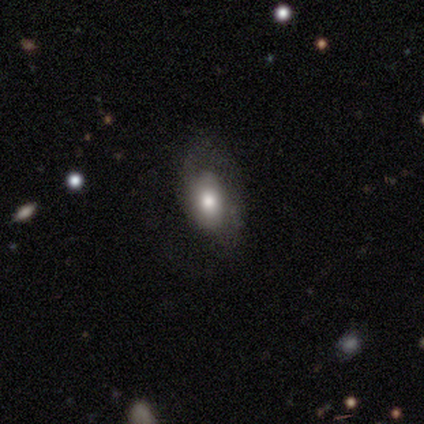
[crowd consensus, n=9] Smooth or featured? featured or disk (44%)
Edge-on disk? no (100%)
Bar? no (100%)
Spiral arms? yes (75%)
Spiral winding? medium (100%)
Spiral arm count? 1 (33%, tied with 2 and can't tell)
Bulge size? moderate (75%)
Merging? none (43%, tied with major disturbance)